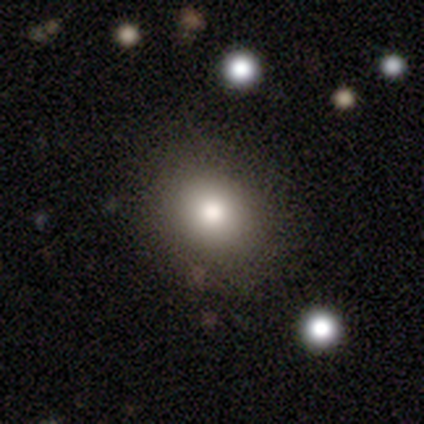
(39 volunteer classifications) This is likely a smooth galaxy (69%). How rounded: possibly in between (52%). Merging: clearly none (89%).